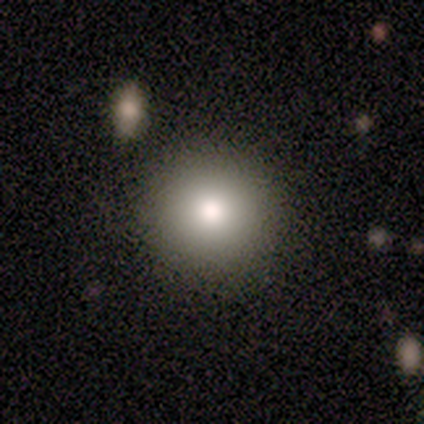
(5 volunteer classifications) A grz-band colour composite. It shows a smooth galaxy with no disk features (60%) that is round (100%). Merging: none (100%).